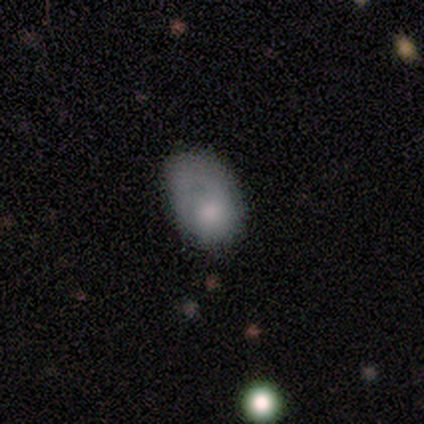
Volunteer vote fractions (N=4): A smooth galaxy with no disk features (50%, tied with featured or disk) that is in between round and cigar-shaped (100%).

Vote fractions:
- Smooth or featured? smooth: 50% (tied) / featured or disk: 50% (tied) / star or artifact: 0%
- How rounded? in between: 100% / round: 0% / cigar-shaped: 0%
- Merging? none: 50% (tied) / major disturbance: 50% (tied) / minor disturbance: 0% / merger: 0%